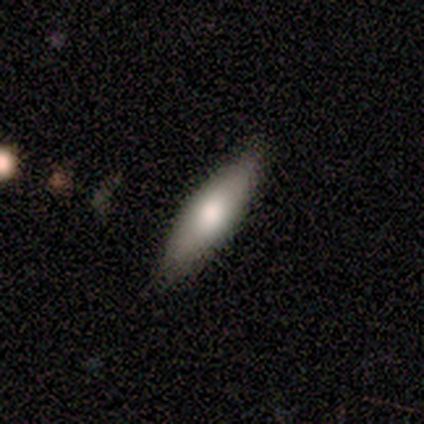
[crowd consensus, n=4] A featured or disk galaxy (75%) viewed edge-on (100%) with a rounded central bulge (67%).

Vote fractions:
- Smooth or featured? featured or disk: 75% / star or artifact: 25% / smooth: 0%
- Edge-on disk? yes: 100% / no: 0%
- Edge-on bulge? rounded: 67% / none: 33% / boxy: 0%
- Merging? none: 67% / minor disturbance: 33% / major disturbance: 0% / merger: 0%